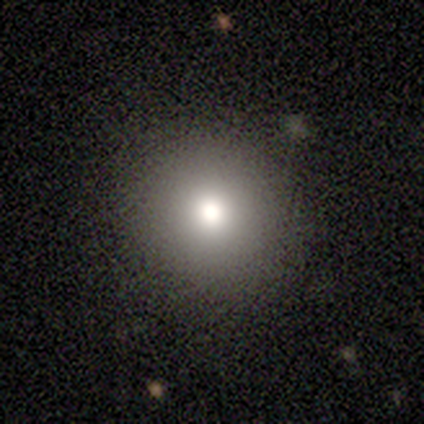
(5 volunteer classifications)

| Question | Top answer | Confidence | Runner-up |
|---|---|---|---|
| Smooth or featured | smooth | 60% | featured or disk (20%) |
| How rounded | round | 100% | — |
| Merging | none | 50% | tied: minor disturbance (50%) |